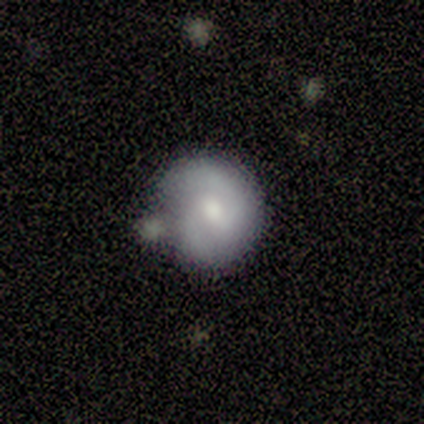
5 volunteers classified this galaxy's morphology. Smooth or featured? 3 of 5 (60%) said smooth. How rounded? 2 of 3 (67%) said round. Merging? 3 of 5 (60%) said none.